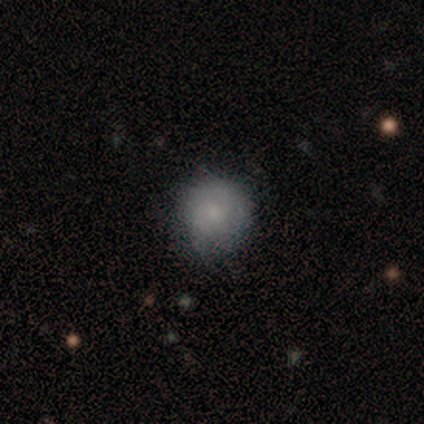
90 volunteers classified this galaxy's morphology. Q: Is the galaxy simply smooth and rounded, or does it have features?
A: smooth — 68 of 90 (76%).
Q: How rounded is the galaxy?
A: round — 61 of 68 (90%).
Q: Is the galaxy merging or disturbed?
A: none — 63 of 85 (74%).